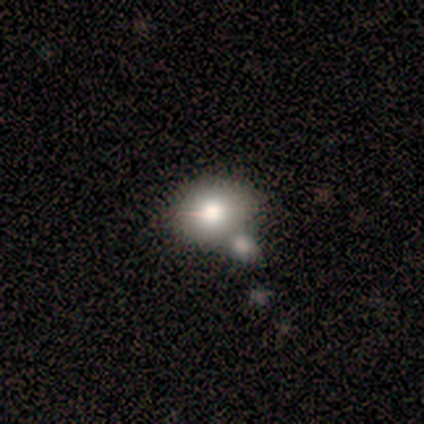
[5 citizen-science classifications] Smooth or featured: smooth — 80% (star or artifact — 20%)
How rounded: round — 50% (tied with in between — 50%)
Merging: none — 75% (minor disturbance — 25%)